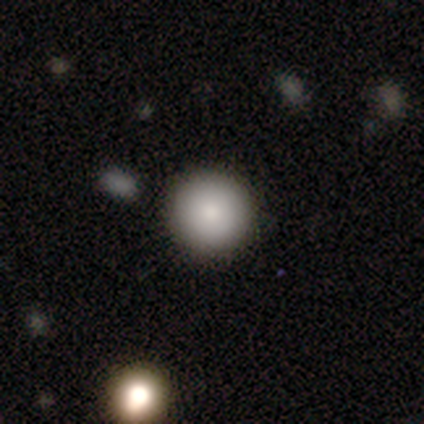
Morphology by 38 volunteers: Volunteers were most divided on "smooth or featured": smooth: 84%, featured or disk: 8%, star or artifact: 8%. More confident: how rounded — round (97%); merging — none (91%).